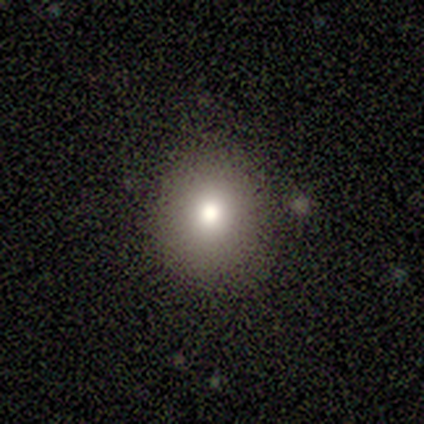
This is clearly a smooth galaxy (80%). How rounded: likely round (75%). Merging: likely none (60%).